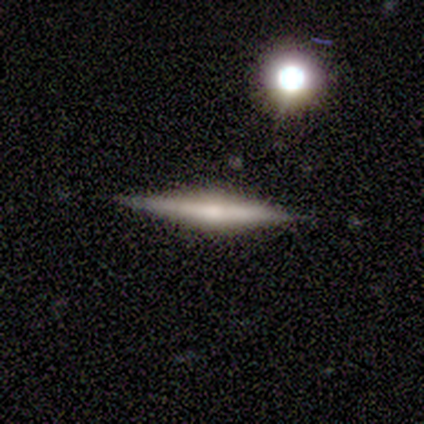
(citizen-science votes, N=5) Smooth or featured?
  - smooth: 80% *
  - featured or disk: 20%
  - star or artifact: 0%
How rounded?
  - cigar-shaped: 75% *
  - round: 25%
  - in between: 0%
Merging?
  - none: 80% *
  - minor disturbance: 20%
  - major disturbance: 0%
  - merger: 0%